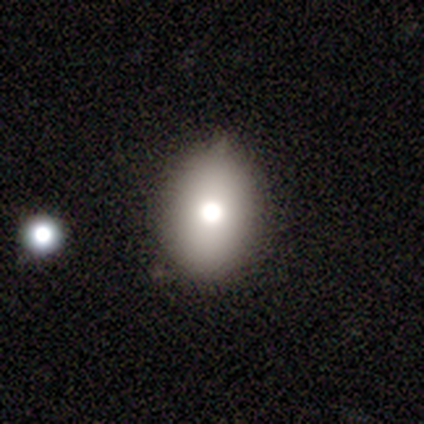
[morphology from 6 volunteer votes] smooth 83%, star or artifact 17%, featured or disk 0%. Down the decision tree: how rounded — in between (100%); merging — none (80%).